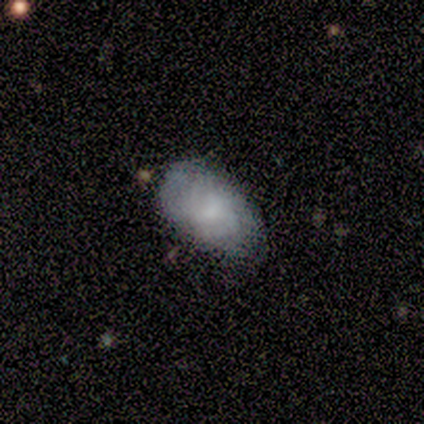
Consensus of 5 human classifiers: Morphology: type=smooth (60%); roundness=in between (100%); merging=none (60%).